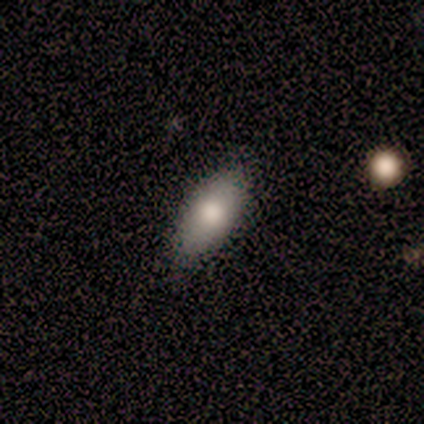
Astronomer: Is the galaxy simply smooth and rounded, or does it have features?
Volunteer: smooth — 100%.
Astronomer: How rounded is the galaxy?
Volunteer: in between — 100%.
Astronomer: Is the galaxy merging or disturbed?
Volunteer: none — 100%.